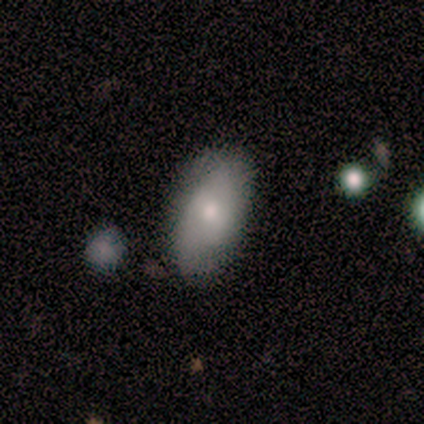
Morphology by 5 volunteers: Overall: smooth (80%). How rounded: in between (100%). Merging: minor disturbance (80%).